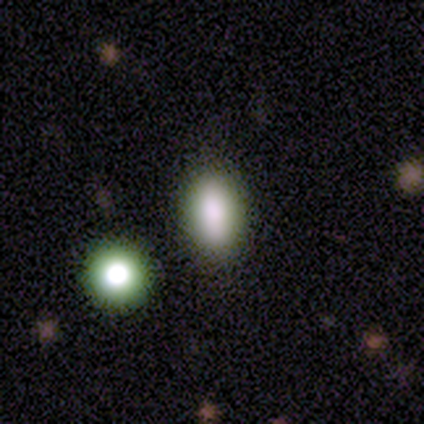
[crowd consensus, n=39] smooth-or-featured: smooth: 69% | star or artifact: 23% | featured or disk: 8%
  how-rounded: in between: 81% | cigar-shaped: 11% | round: 7%
  merging: none: 83% | minor disturbance: 10% | merger: 7% | major disturbance: 0%